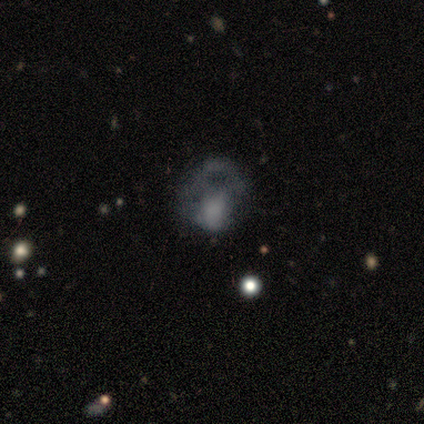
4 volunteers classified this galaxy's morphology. A smooth galaxy with no disk features (50%) that is round (50%, tied with in between). Merging: major disturbance (67%).